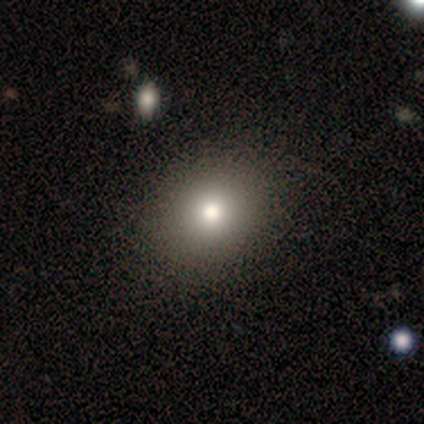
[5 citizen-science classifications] Smooth or featured? smooth (60%)
How rounded? in between (67%)
Merging? none (75%)